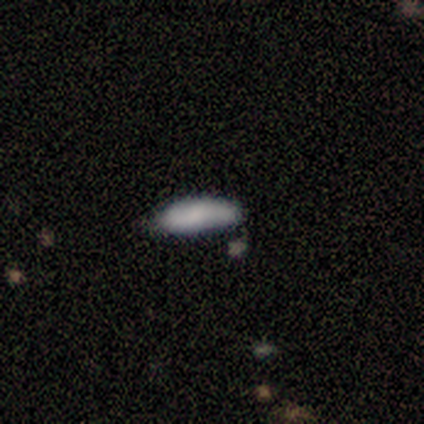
smooth_or_featured: smooth (p=0.67) [alt: featured or disk p=0.33]
how_rounded: cigar-shaped (p=1.00)
merging: minor disturbance (p=0.67) [alt: none p=0.33]